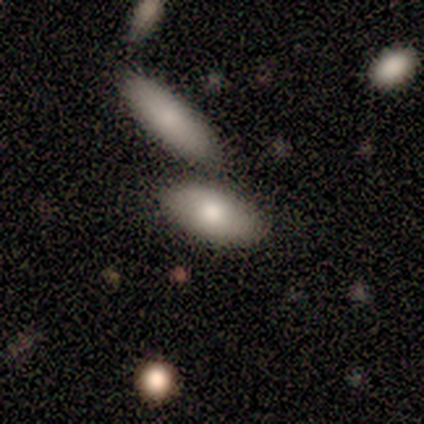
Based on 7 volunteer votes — Q: Smooth or featured?
A: featured or disk (57%); runner-up: smooth (43%)
Q: Edge-on disk?
A: no (100%)
Q: Bar?
A: no (75%); runner-up: strong (25%)
Q: Spiral arms?
A: no (100%)
Q: Bulge size?
A: moderate (75%); runner-up: small (25%)
Q: Merging?
A: none (57%); runner-up: merger (29%)